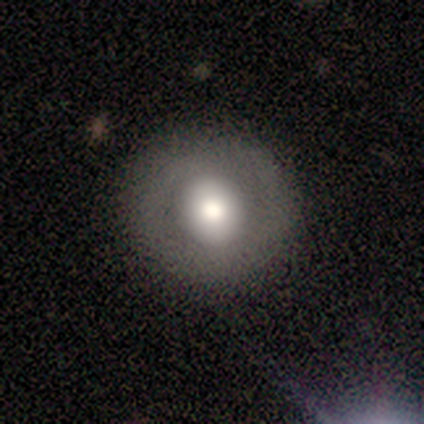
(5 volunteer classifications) smooth-or-featured: smooth: 60% | featured or disk: 40% | star or artifact: 0%
  how-rounded: in between: 67% | round: 33% | cigar-shaped: 0%
  merging: none: 100% | minor disturbance: 0% | major disturbance: 0% | merger: 0%